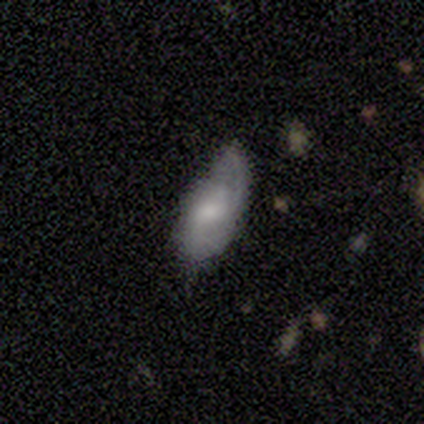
Smooth or featured? smooth (50%, tied with featured or disk)
How rounded? in between (100%)
Merging? minor disturbance (50%)